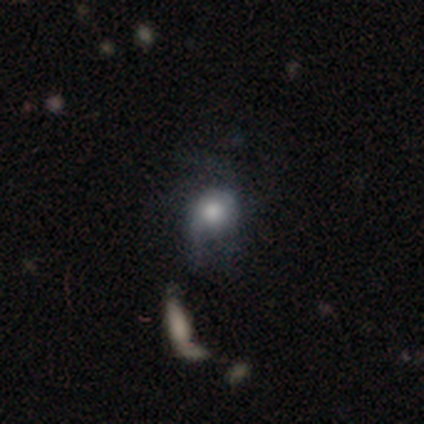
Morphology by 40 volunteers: smooth_or_featured: smooth (p=0.57) [alt: featured or disk p=0.33]
how_rounded: round (p=0.78) [alt: in between p=0.22]
merging: minor disturbance (p=0.42) [alt: none p=0.25]